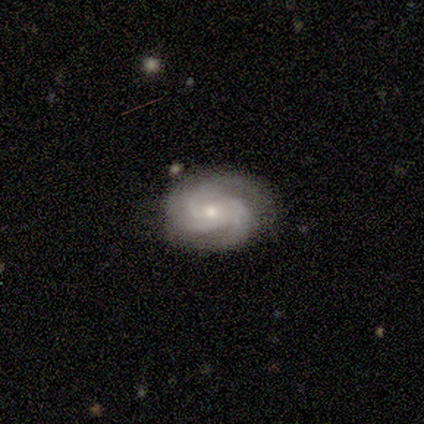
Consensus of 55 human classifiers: Volunteers were most divided on "spiral winding": tight: 53%, medium: 40%, loose: 7%. More confident: spiral arms — yes (100%); edge-on disk — no (98%); bar — no (81%); smooth or featured — featured or disk (80%); merging — none (65%); bulge size — moderate (53%); spiral arm count — 3 (51%).